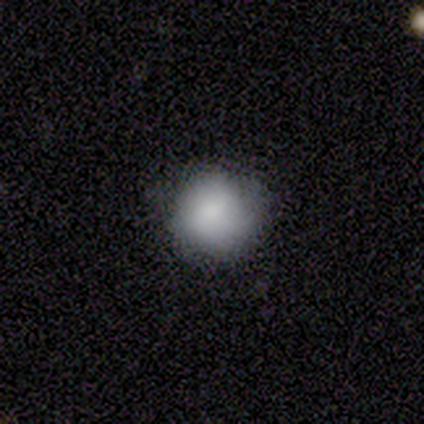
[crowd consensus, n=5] This appears to be a smooth galaxy with no disk features (80%) that is round (100%). Merging: none (100%).